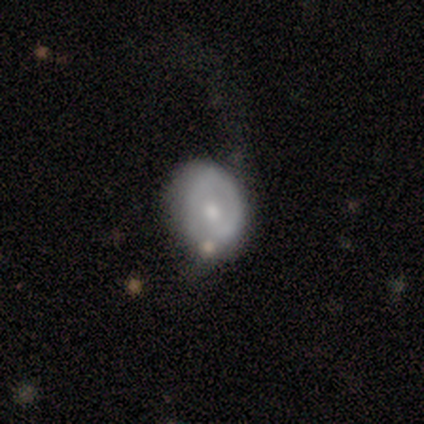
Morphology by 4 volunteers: Q: Smooth or featured?
A: smooth (50%); tied with: featured or disk (50%)
Q: How rounded?
A: round (50%); tied with: in between (50%)
Q: Merging?
A: minor disturbance (50%); runner-up: none (25%)